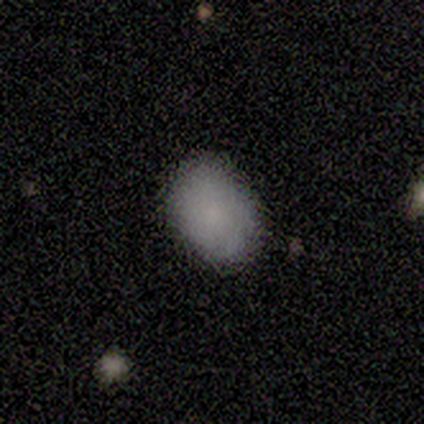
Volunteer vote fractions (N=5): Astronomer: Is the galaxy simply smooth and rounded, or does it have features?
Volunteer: smooth — 60%.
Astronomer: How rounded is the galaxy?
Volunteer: in between — 100%.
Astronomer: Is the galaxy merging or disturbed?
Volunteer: none — 100%.